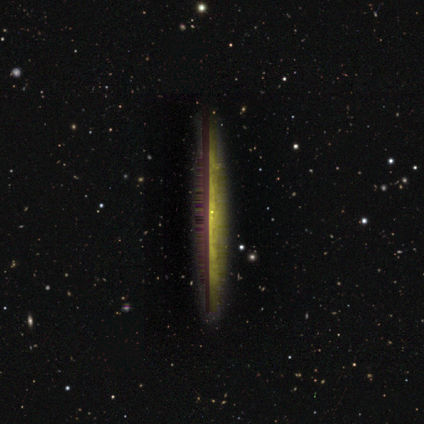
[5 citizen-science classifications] smooth-or-featured: smooth: 40% (tied) | featured or disk: 40% (tied) | star or artifact: 20%
  how-rounded: cigar-shaped: 100% | round: 0% | in between: 0%
  merging: none: 75% | major disturbance: 25% | minor disturbance: 0% | merger: 0%